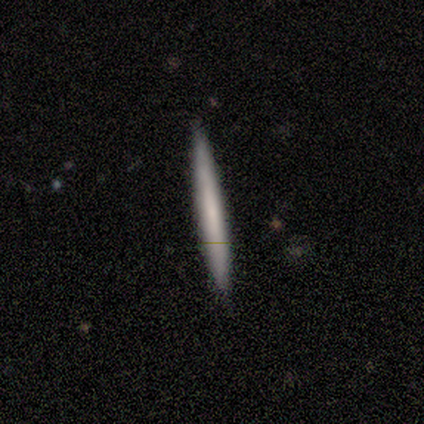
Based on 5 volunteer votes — Smooth or featured? 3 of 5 (60%) said smooth. How rounded? 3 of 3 (100%) said cigar-shaped. Merging? 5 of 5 (100%) said none.